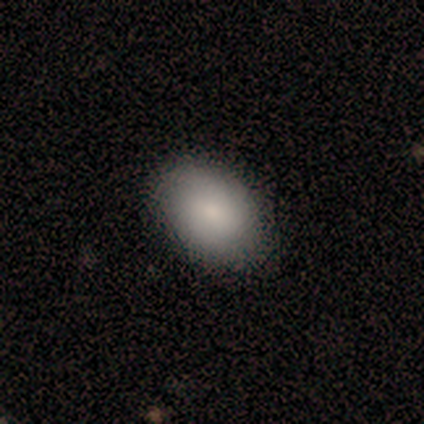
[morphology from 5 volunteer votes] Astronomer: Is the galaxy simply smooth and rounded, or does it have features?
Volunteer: smooth — 80%.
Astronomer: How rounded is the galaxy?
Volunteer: in between — 75%.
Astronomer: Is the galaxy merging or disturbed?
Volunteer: none — 100%.